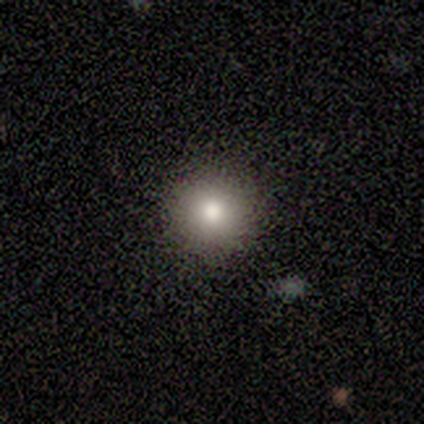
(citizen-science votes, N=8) This appears to be a smooth galaxy with no disk features (88%) that is round (100%). Merging: none (100%).